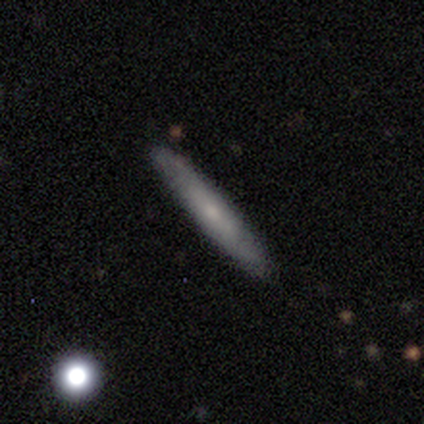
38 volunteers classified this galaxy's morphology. smooth 53%, featured or disk 47%, star or artifact 0%. Down the decision tree: how rounded — cigar-shaped (95%); merging — none (76%).